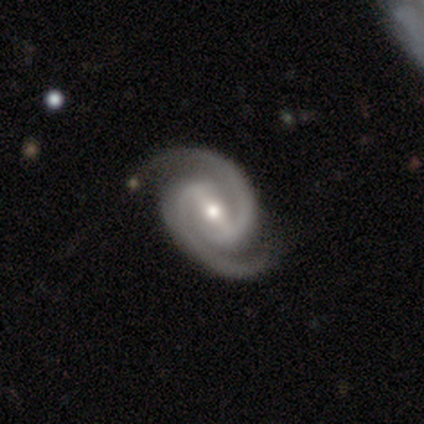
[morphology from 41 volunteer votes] Smooth or featured?
  - featured or disk: 95% *
  - smooth: 5%
  - star or artifact: 0%
Edge-on disk?
  - no: 97% *
  - yes: 3%
Bar?
  - strong: 61% *
  - weak: 34%
  - no: 5%
Spiral arms?
  - yes: 100% *
  - no: 0%
Spiral winding?
  - medium: 50% *
  - tight: 39%
  - loose: 11%
Spiral arm count?
  - 2: 100% *
  - 1: 0%
  - 3: 0%
  - 4: 0%
  - more than 4: 0%
  - can't tell: 0%
Bulge size?
  - moderate: 53% *
  - small: 42%
  - large: 3%
  - none: 3%
  - dominant: 0%
Merging?
  - none: 83% *
  - minor disturbance: 17%
  - major disturbance: 0%
  - merger: 0%